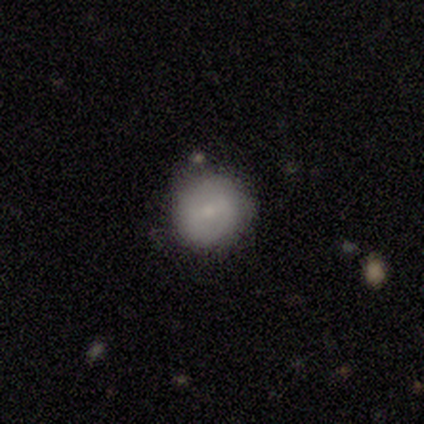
A smooth galaxy with no disk features (61%) that is round (92%).

Vote fractions:
- Smooth or featured? smooth: 61% / featured or disk: 34% / star or artifact: 5%
- How rounded? round: 92% / in between: 8% / cigar-shaped: 0%
- Merging? none: 67% / minor disturbance: 10% / major disturbance: 0% / merger: 0%